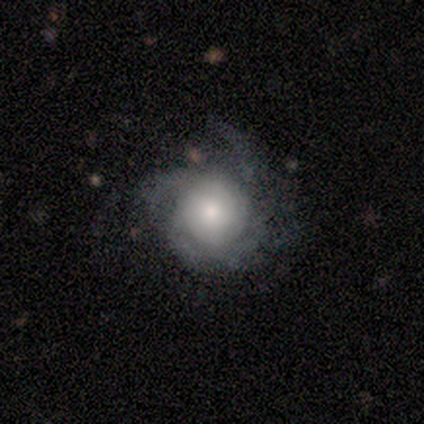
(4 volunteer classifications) smooth-or-featured: featured or disk: 75% | smooth: 25% | star or artifact: 0%
  disk-edge-on: no: 100% | yes: 0%
    bar: no: 100% | strong: 0% | weak: 0%
    has-spiral-arms: yes: 100% | no: 0%
      spiral-winding: loose: 67% | medium: 33% | tight: 0%
      spiral-arm-count: 4: 67% | 3: 33% | 1: 0% | 2: 0% | more than 4: 0% | can't tell: 0%
    bulge-size: dominant: 33% (tied) | moderate: 33% (tied) | small: 33% (tied) | large: 0% | none: 0%
  merging: none: 75% | major disturbance: 25% | minor disturbance: 0% | merger: 0%